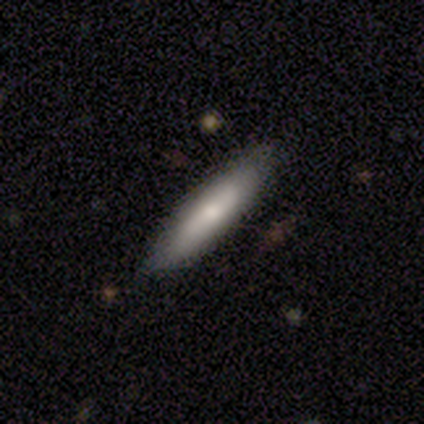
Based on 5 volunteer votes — Smooth or featured?
  - smooth: 60% *
  - featured or disk: 40%
  - star or artifact: 0%
How rounded?
  - cigar-shaped: 67% *
  - in between: 33%
  - round: 0%
Merging?
  - none: 80% *
  - minor disturbance: 20%
  - major disturbance: 0%
  - merger: 0%